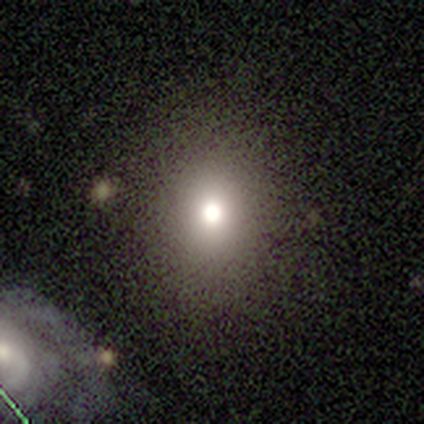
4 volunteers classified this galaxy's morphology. Overall: smooth (100%). How rounded: round (100%). Merging: none (75%).